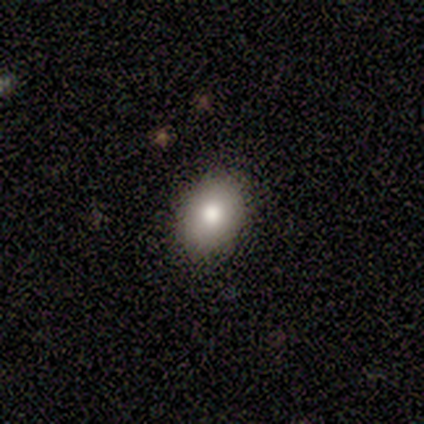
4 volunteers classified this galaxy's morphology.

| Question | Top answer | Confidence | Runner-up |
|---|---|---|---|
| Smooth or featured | smooth | 50% | featured or disk (25%) |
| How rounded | in between | 100% | — |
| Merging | none | 100% | — |